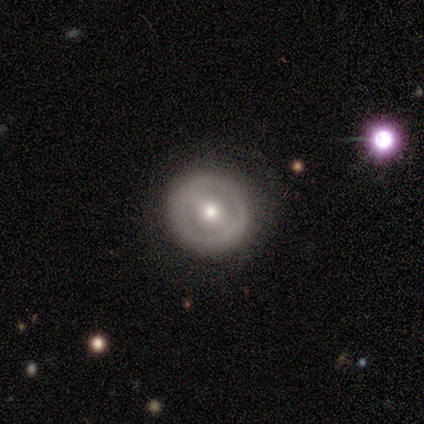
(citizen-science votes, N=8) This is likely a featured or disk galaxy (62%). It is clearly not viewed edge-on (100%). Bar: likely strong (60%). Spiral arm pattern: clearly no (80%). Central bulge: likely moderate (60%). Merging: clearly none (88%).